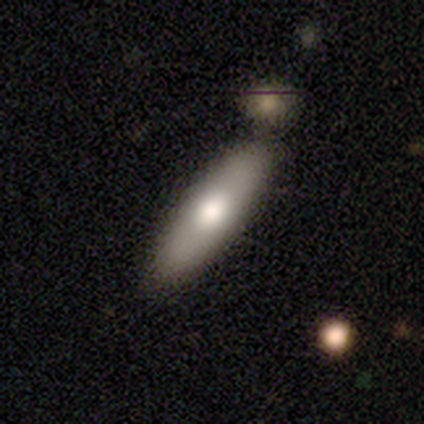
A smooth galaxy with no disk features (80%) that is in between round and cigar-shaped (50%, tied with cigar-shaped). Merging: none (71%).